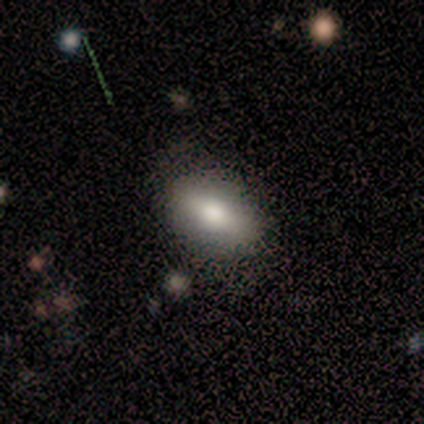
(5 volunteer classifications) smooth_or_featured: smooth (p=0.60) [alt: featured or disk p=0.20]
how_rounded: in between (p=1.00)
merging: minor disturbance (p=0.50) [alt: none p=0.25]